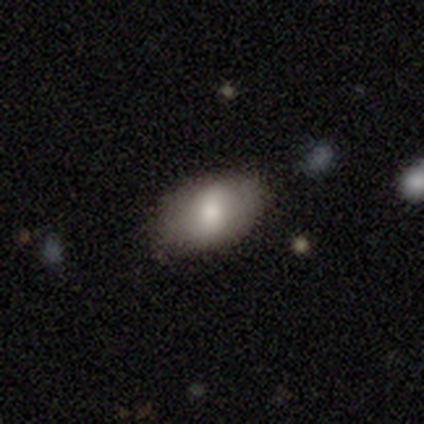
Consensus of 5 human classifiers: Volunteers were most divided on "smooth or featured": featured or disk: 60%, smooth: 40%, star or artifact: 0%. More confident: edge-on disk — no (100%); spiral arms — no (100%); merging — none (80%); bar — weak (67%); bulge size — moderate (67%).